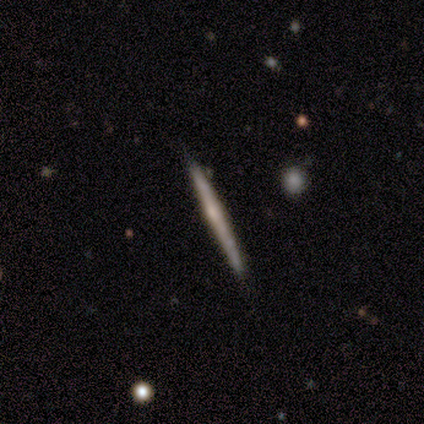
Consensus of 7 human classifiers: Smooth or featured? featured or disk (100%)
Edge-on disk? yes (100%)
Edge-on bulge? rounded (57%)
Merging? none (100%)